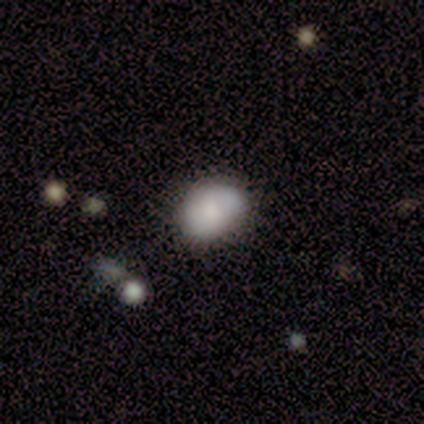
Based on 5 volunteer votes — Overall: smooth (80%). How rounded: in between (100%). Merging: none (75%).